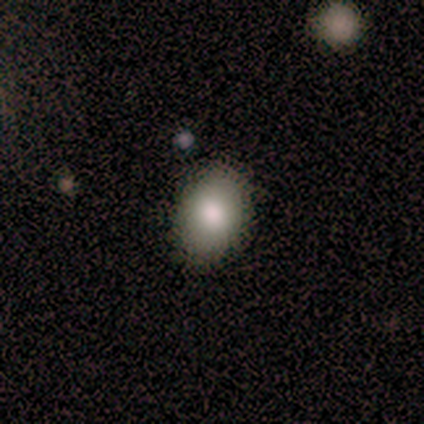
This appears to be a smooth galaxy with no disk features (80%) that is in between round and cigar-shaped (100%). Merging: none (100%).